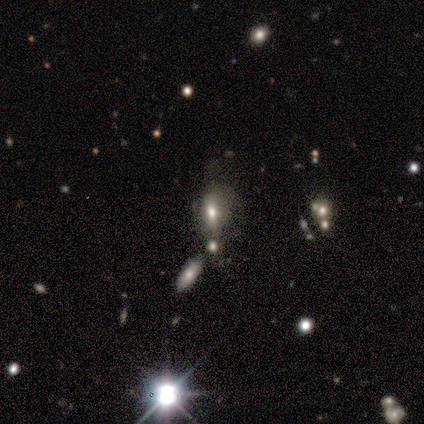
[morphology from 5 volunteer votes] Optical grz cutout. It shows a smooth galaxy with no disk features (60%) that is round (67%). Merging: none (50%).